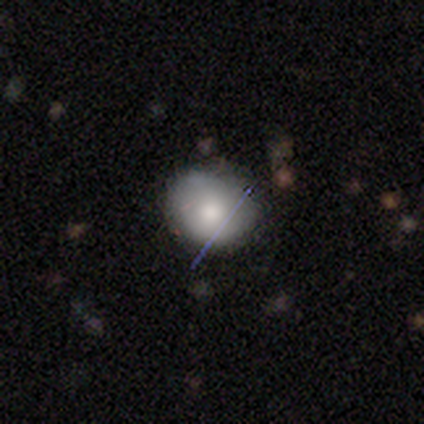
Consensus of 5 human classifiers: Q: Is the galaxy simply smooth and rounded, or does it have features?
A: smooth — 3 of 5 (60%).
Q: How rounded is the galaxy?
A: in between — 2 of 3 (67%).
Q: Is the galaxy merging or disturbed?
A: none — 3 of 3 (100%).